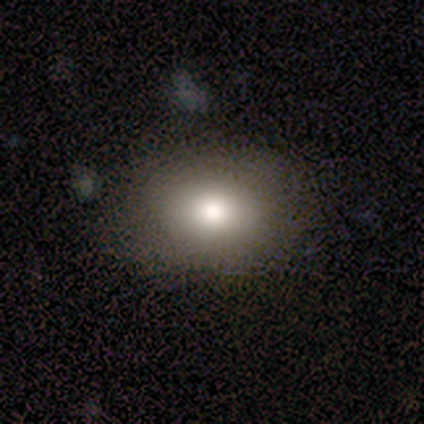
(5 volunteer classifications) Smooth or featured? 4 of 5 (80%) said smooth. How rounded? 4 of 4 (100%) said in between. Merging? 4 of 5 (80%) said none.